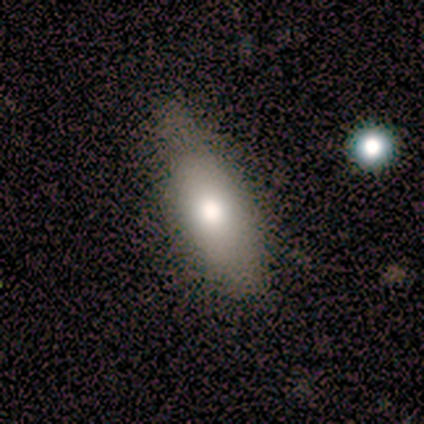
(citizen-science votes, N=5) A smooth galaxy with no disk features (60%) that is in between round and cigar-shaped (67%).

Vote fractions:
- Smooth or featured? smooth: 60% / featured or disk: 40% / star or artifact: 0%
- How rounded? in between: 67% / cigar-shaped: 33% / round: 0%
- Merging? none: 80% / minor disturbance: 20% / major disturbance: 0% / merger: 0%